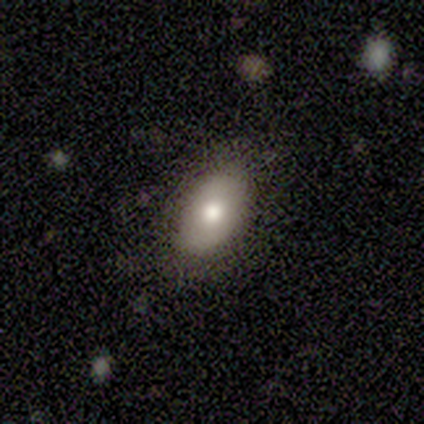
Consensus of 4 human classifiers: smooth_or_featured: smooth (p=1.00)
how_rounded: in between (p=1.00)
merging: none (p=1.00)